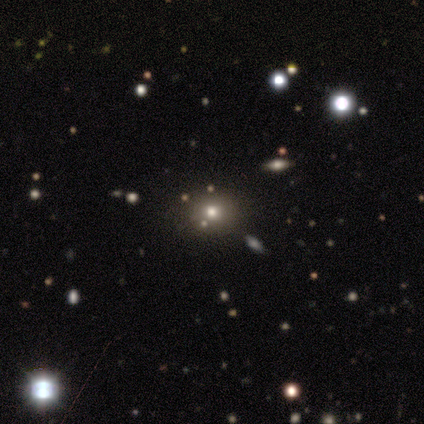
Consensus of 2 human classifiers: smooth-or-featured: smooth: 50% (tied) | star or artifact: 50% (tied) | featured or disk: 0%
  how-rounded: round: 100% | in between: 0% | cigar-shaped: 0%
  merging: none: 100% | minor disturbance: 0% | major disturbance: 0% | merger: 0%